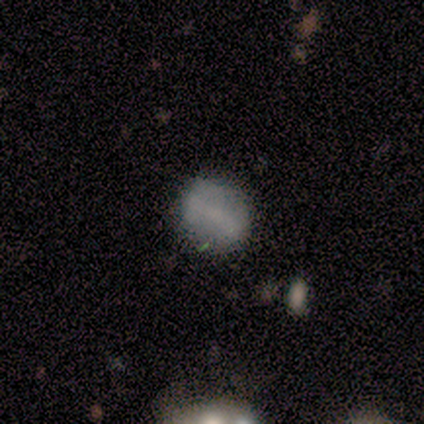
Smooth or featured? 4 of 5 (80%) said smooth. How rounded? 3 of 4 (75%) said round. Merging? 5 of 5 (100%) said none.